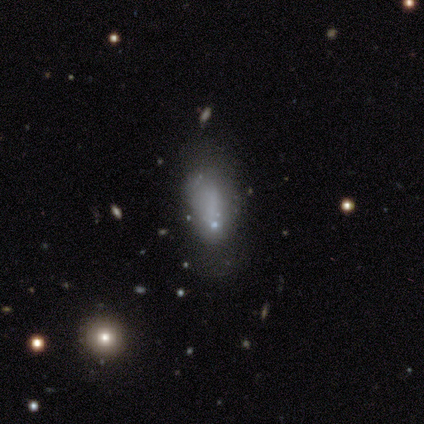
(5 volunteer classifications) smooth-or-featured: smooth: 40% (tied) | star or artifact: 40% (tied) | featured or disk: 20%
  how-rounded: in between: 100% | round: 0% | cigar-shaped: 0%
  merging: minor disturbance: 67% | major disturbance: 33% | none: 0% | merger: 0%